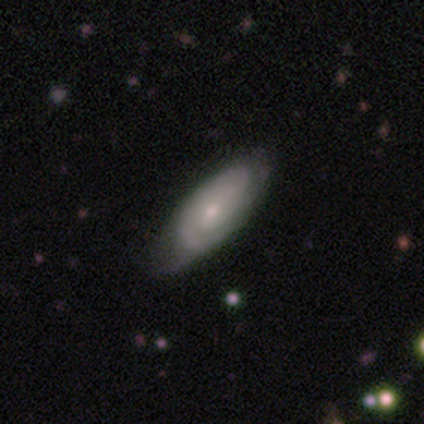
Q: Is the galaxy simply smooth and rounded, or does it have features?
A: featured or disk — 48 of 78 (62%).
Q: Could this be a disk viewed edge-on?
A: no — 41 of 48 (85%).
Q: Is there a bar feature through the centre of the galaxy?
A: no — 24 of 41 (59%).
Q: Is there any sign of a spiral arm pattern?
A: yes — 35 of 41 (85%).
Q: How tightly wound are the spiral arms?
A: tight — 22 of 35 (63%).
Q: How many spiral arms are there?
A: can't tell — 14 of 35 (40%).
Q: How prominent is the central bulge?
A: small — 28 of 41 (68%).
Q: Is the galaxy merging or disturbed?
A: none — 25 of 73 (34%).